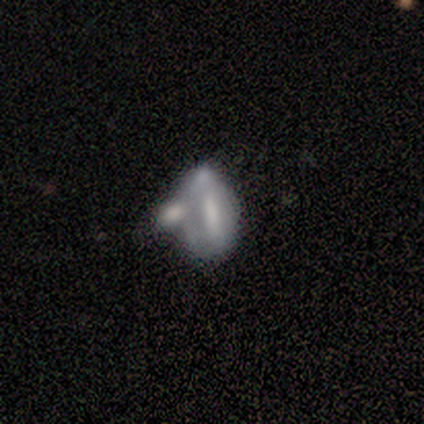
This appears to be a smooth galaxy with no disk features (80%) that is in between round and cigar-shaped (100%). Merging: merger (100%).